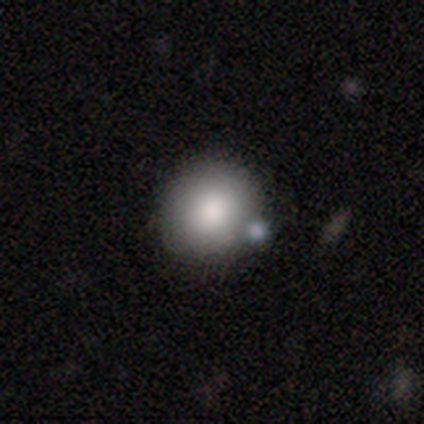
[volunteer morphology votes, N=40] A smooth galaxy with no disk features (82%) that is round (88%). Merging: none (51%).